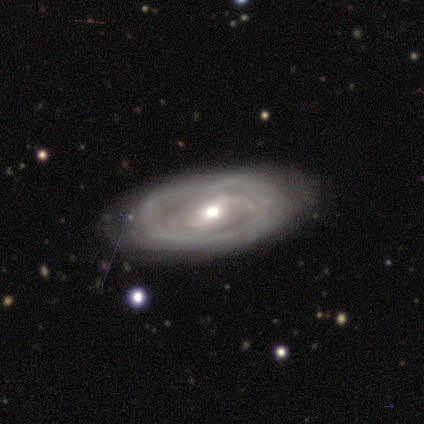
Smooth or featured? 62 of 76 (82%) said featured or disk. Edge-on disk? 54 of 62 (87%) said no. Bar? 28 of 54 (52%) said weak. Spiral arms? 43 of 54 (80%) said yes. Spiral winding? 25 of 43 (58%) said tight. Spiral arm count? 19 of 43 (44%) said can't tell. Bulge size? 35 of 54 (65%) said moderate. Merging? 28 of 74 (38%) said none.